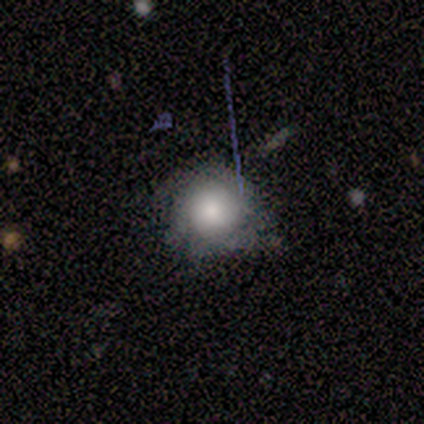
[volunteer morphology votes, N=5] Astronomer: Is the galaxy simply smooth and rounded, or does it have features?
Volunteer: smooth — 60%.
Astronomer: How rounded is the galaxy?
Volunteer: round — 67%.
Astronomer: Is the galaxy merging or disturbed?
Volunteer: none — 75%.